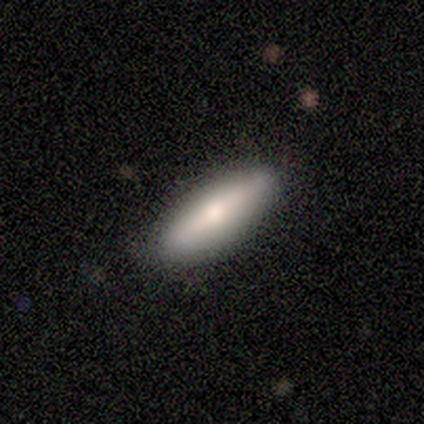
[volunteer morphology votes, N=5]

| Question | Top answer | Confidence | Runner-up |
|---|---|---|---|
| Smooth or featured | featured or disk | 60% | smooth (40%) |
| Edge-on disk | yes | 100% | — |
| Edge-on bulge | rounded | 67% | none (33%) |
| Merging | none | 80% | minor disturbance (20%) |